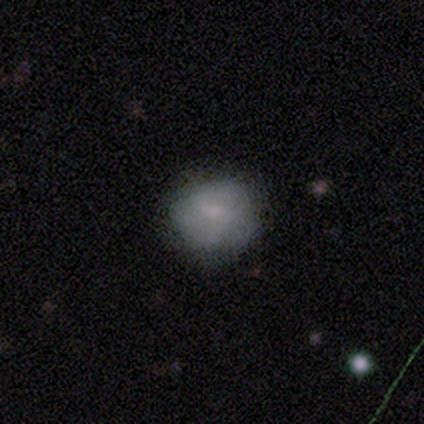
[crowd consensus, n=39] Morphology: type=smooth (82%); roundness=round (88%); merging=none (83%).